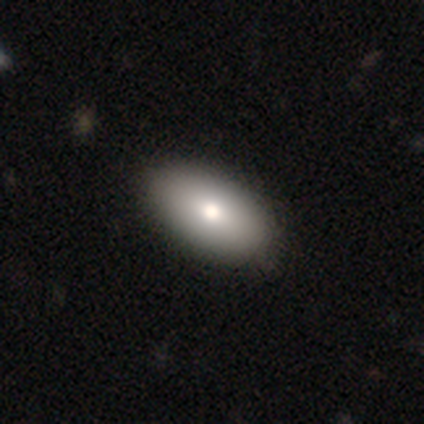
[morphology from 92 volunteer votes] smooth 80%, featured or disk 13%, star or artifact 7%. Down the decision tree: how rounded — in between (96%); merging — none (93%).